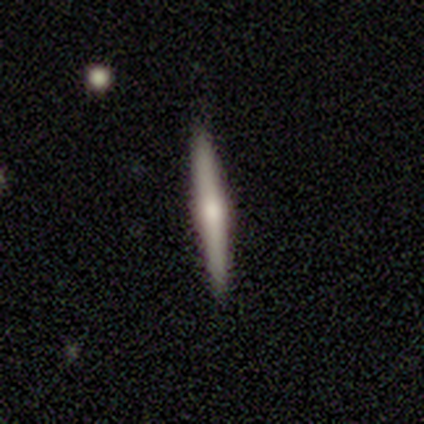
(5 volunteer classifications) smooth_or_featured: featured or disk (p=0.60) [alt: smooth p=0.20]
disk_edge_on: yes (p=0.67) [alt: no p=0.33]
edge_on_bulge: rounded (p=1.00)
merging: none (p=1.00)